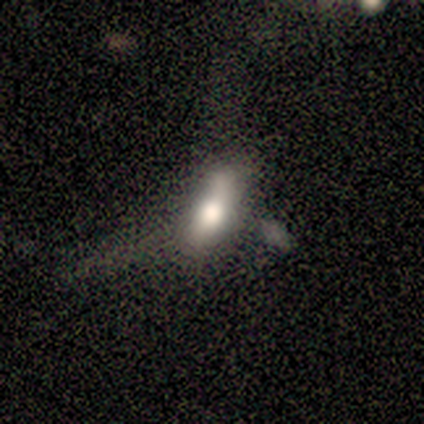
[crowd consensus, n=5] This appears to be a smooth galaxy with no disk features (60%) that is in between round and cigar-shaped (100%). Merging: minor disturbance (40%, tied with major disturbance).